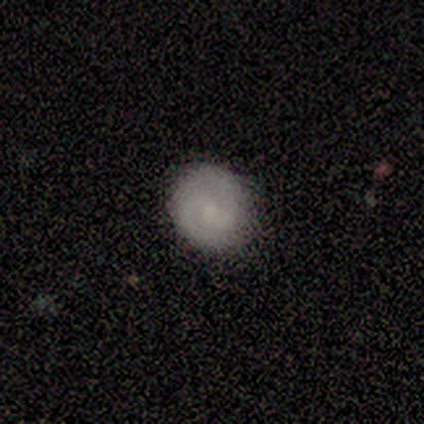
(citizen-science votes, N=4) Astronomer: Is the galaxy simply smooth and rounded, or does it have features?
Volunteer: smooth — 50%, tied with featured or disk at 50%.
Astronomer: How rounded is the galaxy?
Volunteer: round — 100%.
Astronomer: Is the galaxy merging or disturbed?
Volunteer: none — 75%.